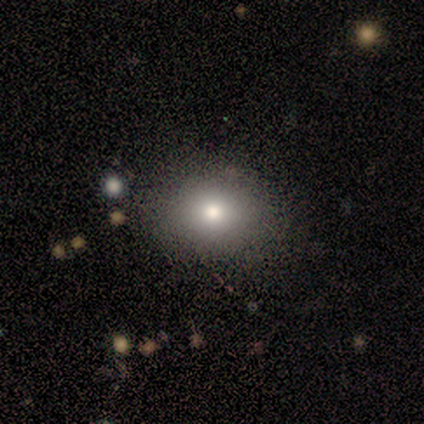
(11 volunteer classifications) This is likely a smooth galaxy (73%). How rounded: possibly round (50%, tied with in between). Merging: clearly none (80%).